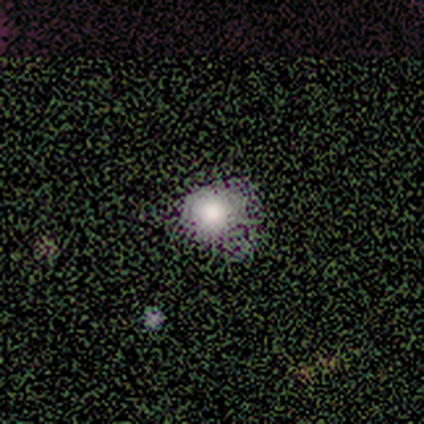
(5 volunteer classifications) This appears to be a smooth galaxy with no disk features (60%) that is round (100%). Merging: none (100%).